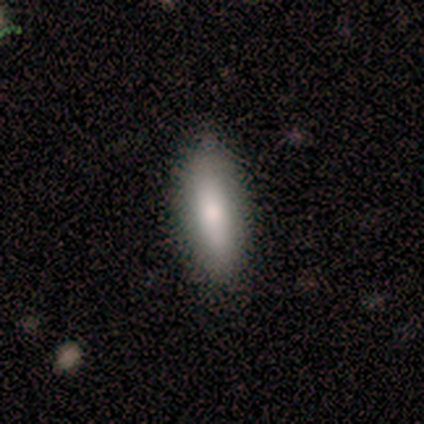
Overall: smooth (100%). How rounded: in between (70%; cigar-shaped 30%). Merging: none (100%).